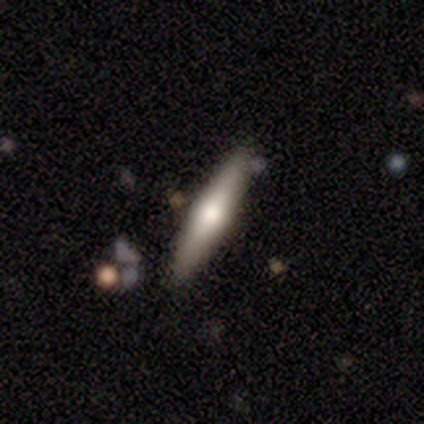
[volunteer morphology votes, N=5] Volunteers were most divided on "smooth or featured" (2-way tie): smooth: 40%, featured or disk: 40%, star or artifact: 20%. More confident: how rounded — cigar-shaped (100%); merging — none (100%).